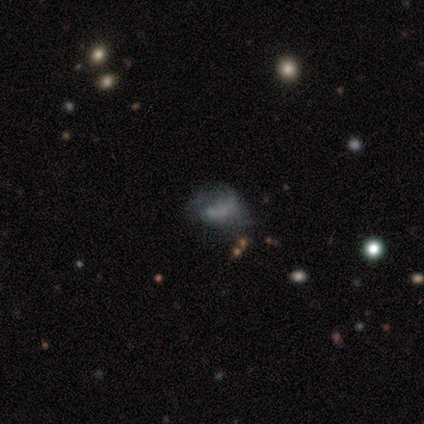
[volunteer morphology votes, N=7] type=smooth (57%); roundness=round (50%, tied with in between); merging=none (57%).